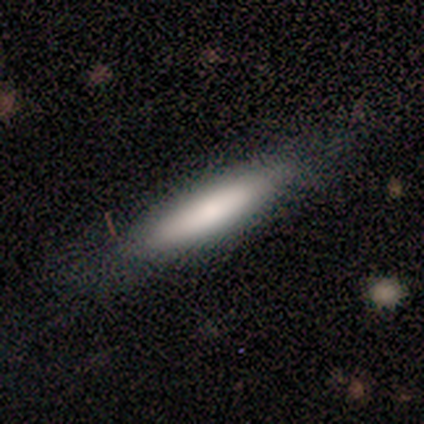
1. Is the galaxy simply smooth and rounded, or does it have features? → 84% smooth, 14% featured or disk, 3% star or artifact.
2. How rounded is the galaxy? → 84% cigar-shaped, 16% in between, 0% round.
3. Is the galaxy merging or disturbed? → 86% none, 11% minor disturbance, 3% major disturbance, 0% merger.